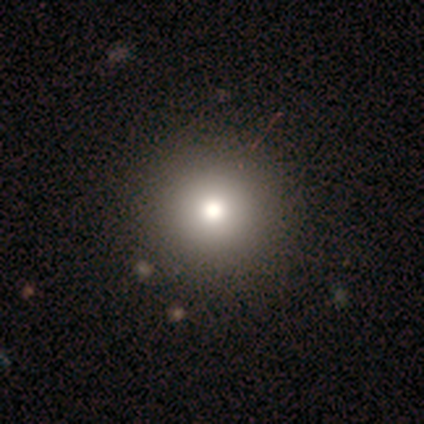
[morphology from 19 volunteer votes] A smooth galaxy with no disk features (79%) that is round (100%).

Vote fractions:
- Smooth or featured? smooth: 79% / star or artifact: 21% / featured or disk: 0%
- How rounded? round: 100% / in between: 0% / cigar-shaped: 0%
- Merging? none: 67% / minor disturbance: 33% / major disturbance: 0% / merger: 0%